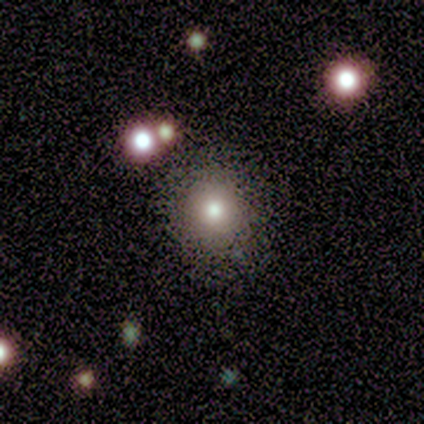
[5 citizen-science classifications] This is clearly a smooth galaxy (100%). How rounded: clearly round (100%). Merging: clearly none (100%).